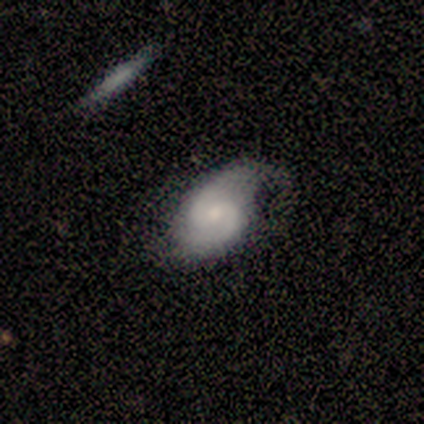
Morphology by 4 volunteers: Volunteers were most divided on "bar" (2-way tie): weak: 50%, no: 50%, strong: 0%; "spiral winding" (2-way tie): tight: 50%, medium: 50%, loose: 0%. More confident: smooth or featured — featured or disk (100%); edge-on disk — no (100%); spiral arms — yes (100%); spiral arm count — 2 (100%); bulge size — moderate (75%); merging — none (75%).